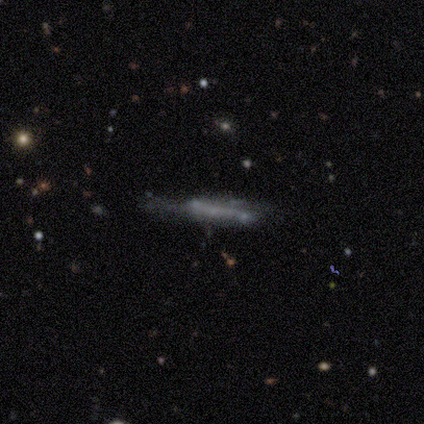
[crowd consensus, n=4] A smooth galaxy with no disk features (75%) that is cigar-shaped (100%). Merging: none (75%).